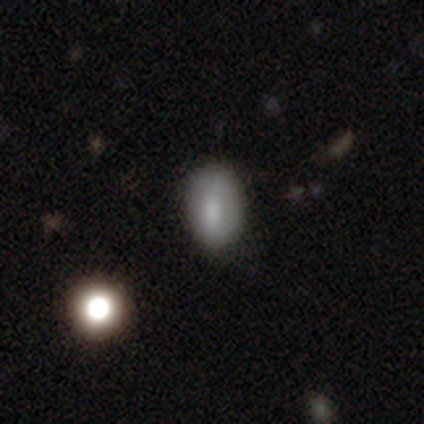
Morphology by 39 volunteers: type=smooth (72%); roundness=in between (93%); merging=none (80%).